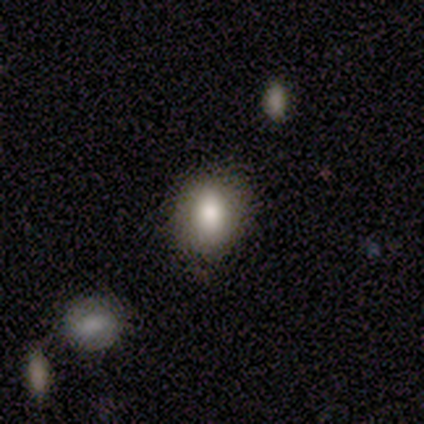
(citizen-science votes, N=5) Q: Smooth or featured?
A: smooth (100%)
Q: How rounded?
A: round (80%); runner-up: in between (20%)
Q: Merging?
A: none (100%)